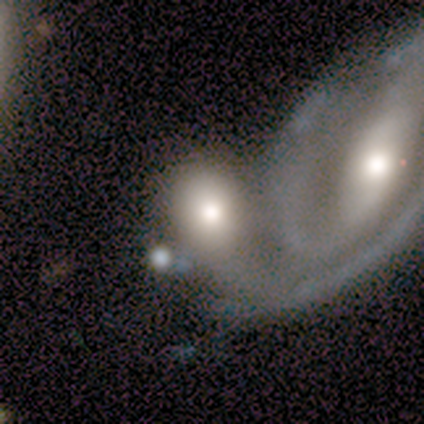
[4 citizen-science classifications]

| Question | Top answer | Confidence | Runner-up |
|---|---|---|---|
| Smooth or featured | smooth | 75% | featured or disk (25%) |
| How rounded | round | 100% | — |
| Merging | none | 50% | tied: merger (50%) |